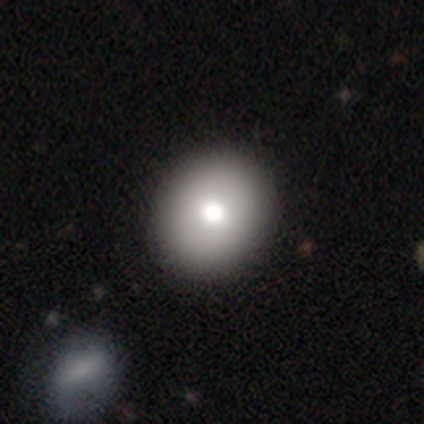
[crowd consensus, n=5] This appears to be a smooth galaxy with no disk features (80%) that is in between round and cigar-shaped (75%). Merging: none (75%).